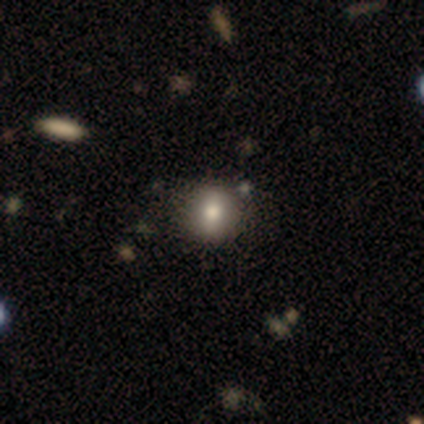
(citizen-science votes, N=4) Consensus on every question: smooth or featured — smooth (100%); how rounded — round (100%); merging — none (100%).